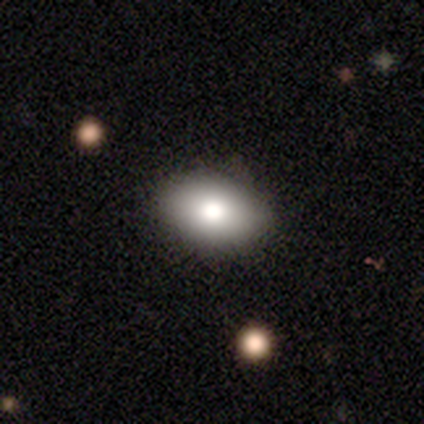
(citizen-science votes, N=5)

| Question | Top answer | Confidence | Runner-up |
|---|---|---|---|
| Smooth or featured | smooth | 80% | star or artifact (20%) |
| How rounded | in between | 100% | — |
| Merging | none | 100% | — |